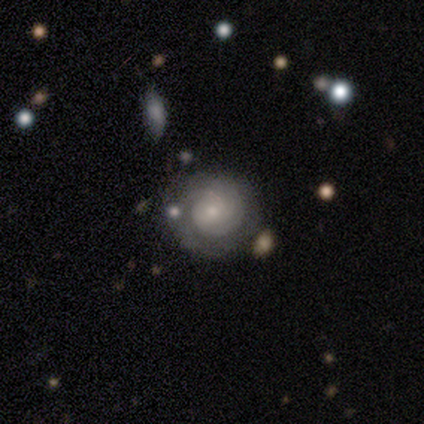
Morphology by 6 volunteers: A featured or disk galaxy (83%) with no bar (80%), tight (100%) spiral arms (100%) and a small central bulge (100%). Merging: none (100%).